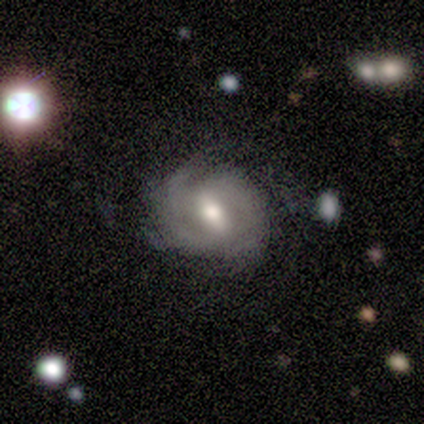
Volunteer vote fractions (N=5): Q: Smooth or featured?
A: featured or disk (60%); runner-up: smooth (40%)
Q: Edge-on disk?
A: no (100%)
Q: Bar?
A: strong (33%); tied with: weak (33%); no (33%)
Q: Spiral arms?
A: yes (67%); runner-up: no (33%)
Q: Spiral winding?
A: medium (50%); tied with: loose (50%)
Q: Spiral arm count?
A: 2 (50%); tied with: can't tell (50%)
Q: Bulge size?
A: small (100%)
Q: Merging?
A: minor disturbance (60%); runner-up: none (40%)